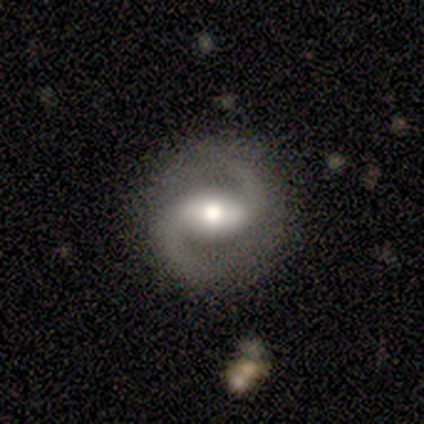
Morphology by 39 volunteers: featured or disk 87%, smooth 10%, star or artifact 3%. Down the decision tree: edge-on disk — no (100%); bar — strong (47%); spiral arms — yes (85%); spiral arm count — 2 (93%); spiral winding — medium (55%); bulge size — moderate (59%); merging — none (89%).